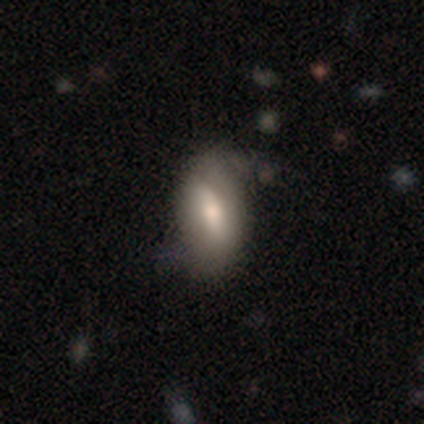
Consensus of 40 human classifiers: Smooth or featured?
  - smooth: 70% *
  - featured or disk: 25%
  - star or artifact: 5%
How rounded?
  - in between: 82% *
  - cigar-shaped: 14%
  - round: 4%
Merging?
  - none: 66% *
  - minor disturbance: 29%
  - major disturbance: 5%
  - merger: 0%